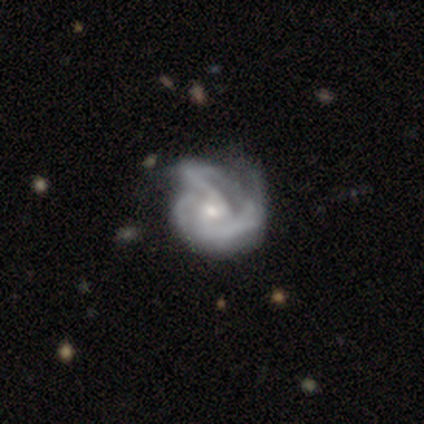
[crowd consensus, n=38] Volunteers were most divided on "bulge size": small: 49%, moderate: 43%, large: 6%, none: 3%, dominant: 0%. Remaining: edge-on disk — no (100%); smooth or featured — featured or disk (92%); spiral arms — yes (89%); bar — no (57%); spiral winding — medium (55%); spiral arm count — 3 (52%); merging — major disturbance (41%).